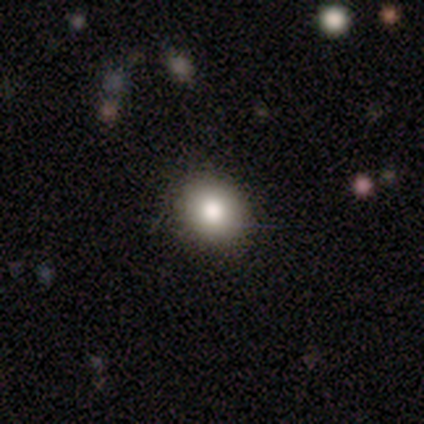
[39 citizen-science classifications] A smooth galaxy with no disk features (95%) that is round (73%).

Vote fractions:
- Smooth or featured? smooth: 95% / featured or disk: 5% / star or artifact: 0%
- How rounded? round: 73% / in between: 27% / cigar-shaped: 0%
- Merging? none: 69% / minor disturbance: 5% / major disturbance: 0% / merger: 0%